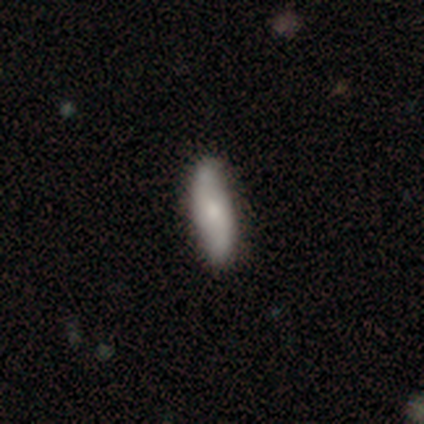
smooth 60%, featured or disk 40%, star or artifact 0%. Down the decision tree: how rounded — cigar-shaped (100%); merging — none (80%).